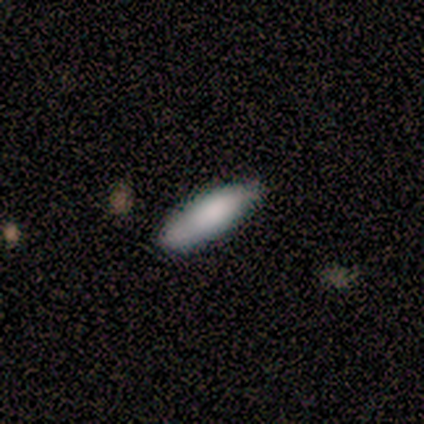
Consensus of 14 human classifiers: Smooth or featured? smooth (79%)
How rounded? cigar-shaped (55%)
Merging? none (86%)